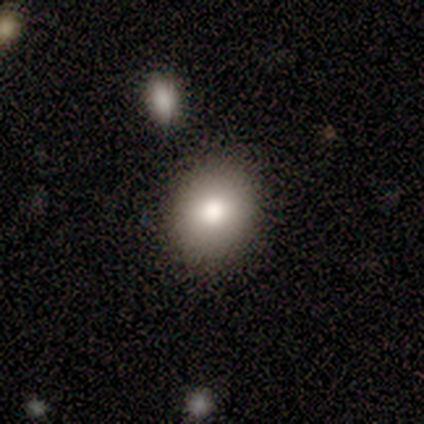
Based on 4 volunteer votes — A smooth galaxy with no disk features (75%) that is in between round and cigar-shaped (100%). Merging: none (67%).